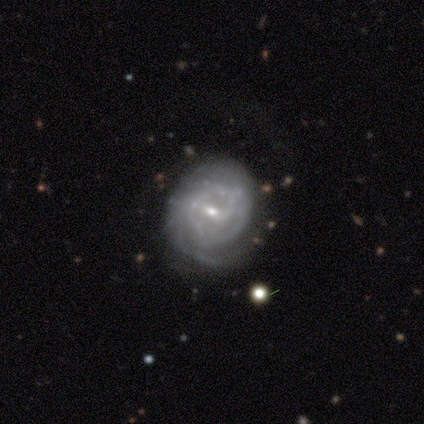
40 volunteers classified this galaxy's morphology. Overall: featured or disk (92%). Edge-on disk: no (95%). Bar: weak (57%; no 34%). Spiral arms: yes (91%). Spiral arm count: can't tell (50%; 3 31%). Spiral winding: tight (75%). Bulge size: small (80%). Merging: none (66%).